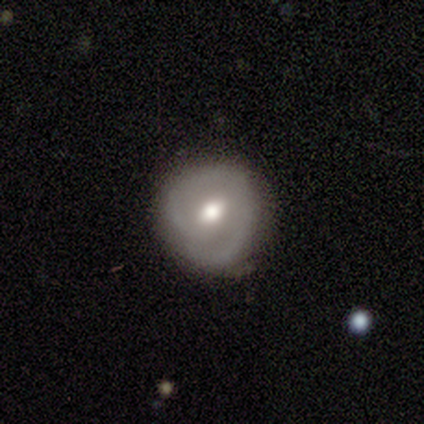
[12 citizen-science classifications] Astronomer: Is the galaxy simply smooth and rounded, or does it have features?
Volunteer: featured or disk — 75%.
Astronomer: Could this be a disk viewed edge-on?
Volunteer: no — 100%.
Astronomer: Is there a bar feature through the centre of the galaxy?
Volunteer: weak — 67%.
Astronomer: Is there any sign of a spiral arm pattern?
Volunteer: yes — 89%.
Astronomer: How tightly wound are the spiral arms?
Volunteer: tight — 75%.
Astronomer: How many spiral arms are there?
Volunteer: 2 — 50% (runner-up: 1, 38%).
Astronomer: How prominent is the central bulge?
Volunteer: moderate — 100%.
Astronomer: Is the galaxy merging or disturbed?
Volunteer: none — 55% (runner-up: minor disturbance, 45%).